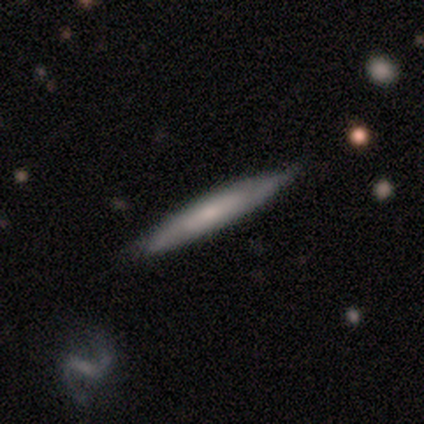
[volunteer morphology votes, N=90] type=featured or disk (52%); edge-on=yes (77%); edge-on bulge=none (64%); merging=none (85%).